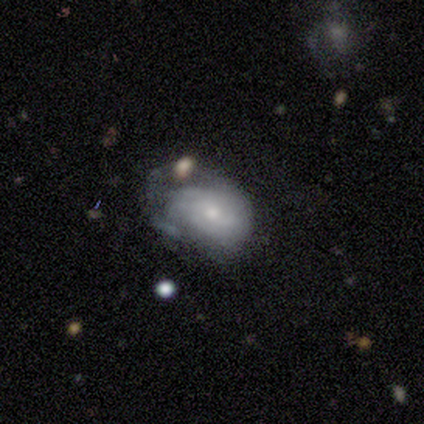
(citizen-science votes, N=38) smooth-or-featured: featured or disk: 58% | smooth: 34% | star or artifact: 8%
  disk-edge-on: no: 100% | yes: 0%
    bar: no: 77% | weak: 18% | strong: 5%
    has-spiral-arms: yes: 50% (tied) | no: 50% (tied)
      spiral-winding: medium: 45% | tight: 36% | loose: 18%
      spiral-arm-count: can't tell: 73% | 2: 27% | 1: 0% | 3: 0% | 4: 0% | more than 4: 0%
    bulge-size: small: 55% | moderate: 41% | none: 5% | dominant: 0% | large: 0%
  merging: major disturbance: 40% | none: 26% | minor disturbance: 20% | merger: 14%